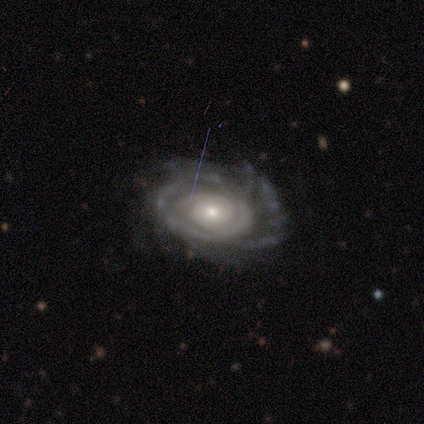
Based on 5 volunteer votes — Smooth or featured: featured or disk — 80% (star or artifact — 20%)
Edge-on disk: no — 75% (yes — 25%)
Bar: weak — 67% (no — 33%)
Spiral arms: yes — 100%
Spiral winding: tight — 67% (medium — 33%)
Spiral arm count: can't tell — 67% (2 — 33%)
Bulge size: small — 67% (moderate — 33%)
Merging: none — 75% (merger — 25%)